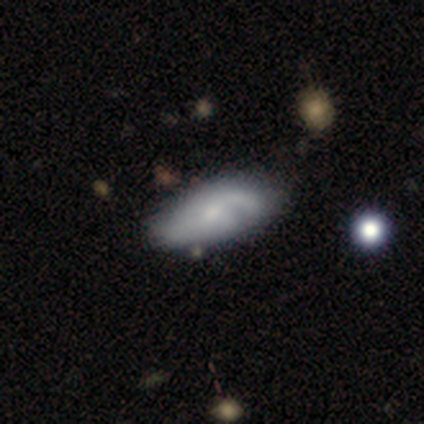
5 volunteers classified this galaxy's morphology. Smooth or featured? 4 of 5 (80%) said featured or disk. Edge-on disk? 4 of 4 (100%) said no. Bar? 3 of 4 (75%) said weak. Spiral arms? 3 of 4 (75%) said yes. Spiral winding? 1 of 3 (33%, tied with medium and loose) said tight. Spiral arm count? 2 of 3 (67%) said 1. Bulge size? 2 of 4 (50%, tied with small) said moderate. Merging? 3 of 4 (75%) said none.